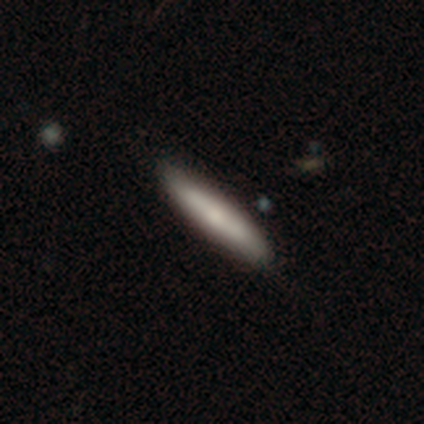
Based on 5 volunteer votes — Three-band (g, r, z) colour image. It shows a smooth galaxy with no disk features (60%) that is cigar-shaped (67%). Merging: none (100%).